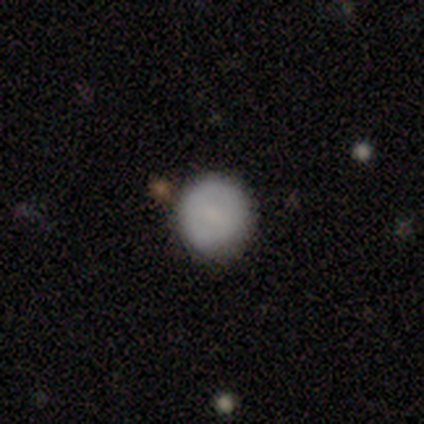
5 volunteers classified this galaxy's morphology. Overall: smooth (80%). How rounded: round (100%). Merging: none (75%).